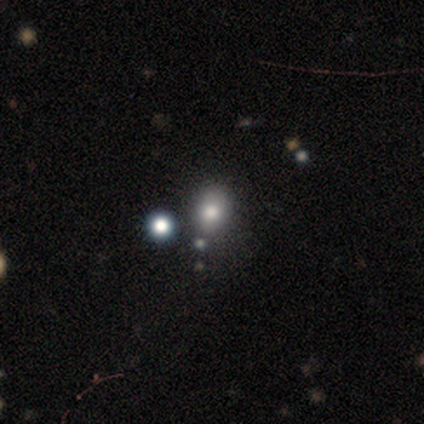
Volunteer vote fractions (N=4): A smooth galaxy with no disk features (75%) that is round (67%).

Vote fractions:
- Smooth or featured? smooth: 75% / star or artifact: 25% / featured or disk: 0%
- How rounded? round: 67% / in between: 33% / cigar-shaped: 0%
- Merging? none: 100% / minor disturbance: 0% / major disturbance: 0% / merger: 0%